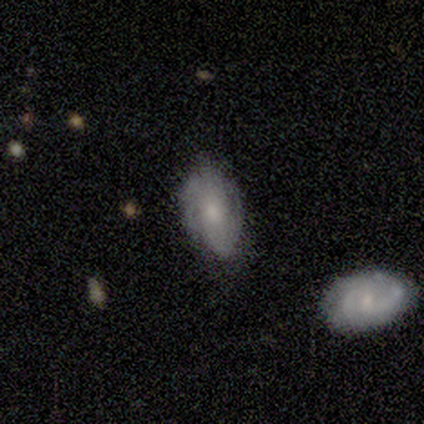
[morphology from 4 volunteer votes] Smooth or featured?
  - featured or disk: 50% *
  - smooth: 25%
  - star or artifact: 25%
Edge-on disk?
  - no: 100% *
  - yes: 0%
Bar?
  - weak: 50% * (tied)
  - no: 50% * (tied)
  - strong: 0%
Spiral arms?
  - yes: 50% * (tied)
  - no: 50% * (tied)
Spiral winding?
  - tight: 100% *
  - medium: 0%
  - loose: 0%
Spiral arm count?
  - can't tell: 100% *
  - 1: 0%
  - 2: 0%
  - 3: 0%
  - 4: 0%
  - more than 4: 0%
Bulge size?
  - moderate: 100% *
  - dominant: 0%
  - large: 0%
  - small: 0%
  - none: 0%
Merging?
  - minor disturbance: 67% *
  - none: 33%
  - major disturbance: 0%
  - merger: 0%